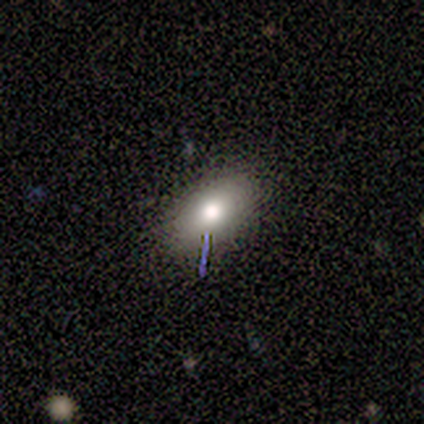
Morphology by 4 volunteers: A smooth galaxy with no disk features (75%) that is in between round and cigar-shaped (67%).

Vote fractions:
- Smooth or featured? smooth: 75% / featured or disk: 25% / star or artifact: 0%
- How rounded? in between: 67% / round: 33% / cigar-shaped: 0%
- Merging? none: 50% / minor disturbance: 25% / merger: 25% / major disturbance: 0%